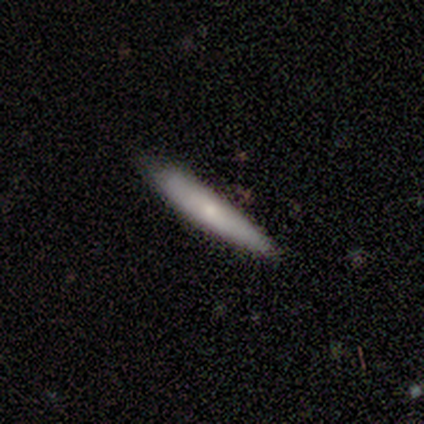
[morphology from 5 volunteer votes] This is likely a smooth galaxy (60%). How rounded: clearly cigar-shaped (100%). Merging: likely none (60%).